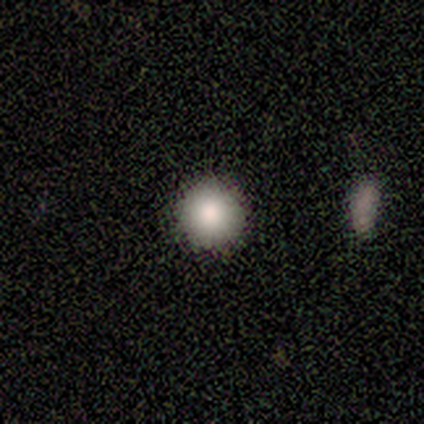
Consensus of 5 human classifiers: This appears to be a smooth galaxy with no disk features (100%) that is round (80%). Merging: none (100%).